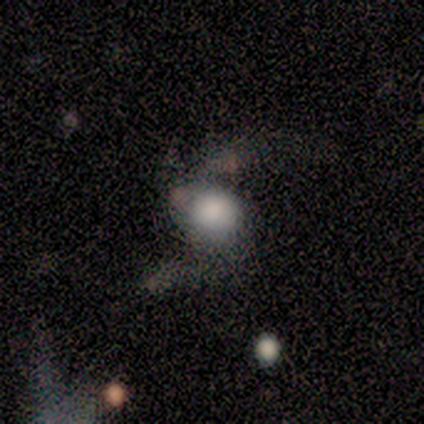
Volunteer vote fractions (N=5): Volunteers were most divided on "how rounded" (2-way tie): round: 50%, in between: 50%, cigar-shaped: 0%. More confident: smooth or featured — smooth (80%); merging — major disturbance (60%).